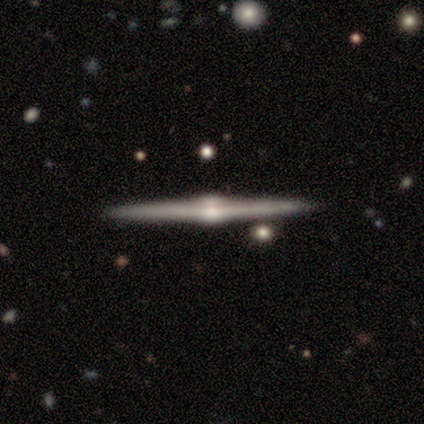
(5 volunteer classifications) A featured or disk galaxy (100%) viewed edge-on (100%) with a rounded central bulge (100%). Merging: none (100%).